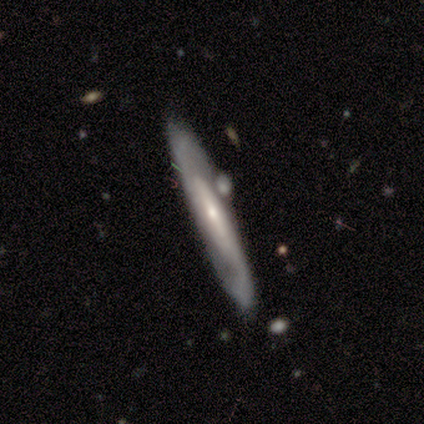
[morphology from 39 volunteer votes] Overall: featured or disk (72%). Edge-on disk: yes (61%; no 39%). Edge-on bulge: rounded (59%; none 41%). Merging: none (70%).